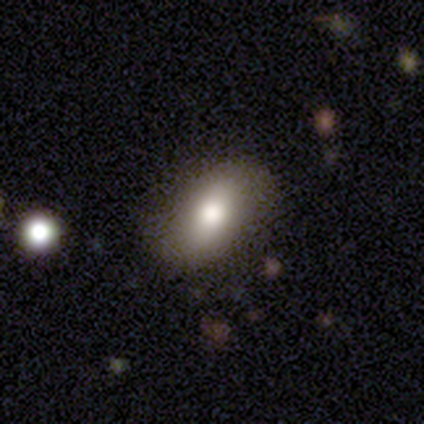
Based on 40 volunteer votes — smooth-or-featured: smooth: 80% | featured or disk: 12% | star or artifact: 8%
  how-rounded: in between: 91% | round: 9% | cigar-shaped: 0%
  merging: none: 76% | minor disturbance: 22% | merger: 3% | major disturbance: 0%